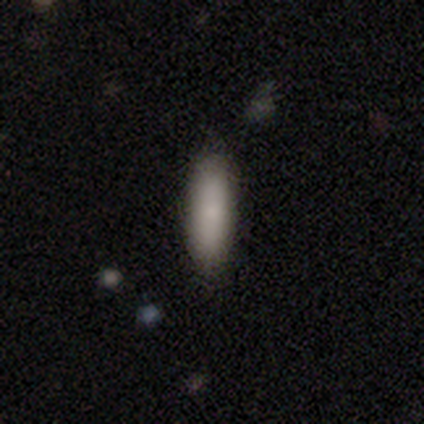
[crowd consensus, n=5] A smooth galaxy with no disk features (100%) that is in between round and cigar-shaped (60%). Merging: none (60%).